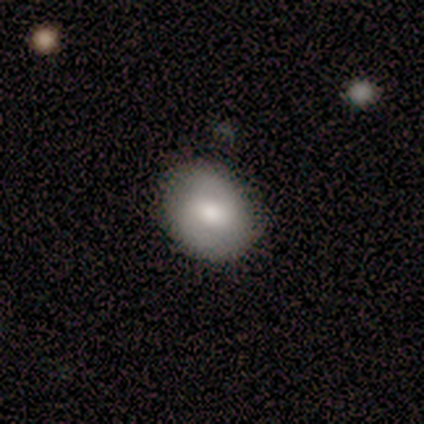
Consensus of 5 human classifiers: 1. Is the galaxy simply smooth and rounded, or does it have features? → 60% featured or disk, 40% smooth, 0% star or artifact.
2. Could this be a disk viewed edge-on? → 100% no, 0% yes.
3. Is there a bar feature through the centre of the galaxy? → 100% no, 0% strong, 0% weak.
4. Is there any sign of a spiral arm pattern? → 67% yes, 33% no.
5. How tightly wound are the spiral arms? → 50% tight (tied), 50% medium (tied), 0% loose.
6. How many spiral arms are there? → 100% 2, 0% 1, 0% 3, 0% 4, 0% more than 4, 0% can't tell.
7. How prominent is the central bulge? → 33% large (tied), 33% moderate (tied), 33% small (tied), 0% dominant, 0% none.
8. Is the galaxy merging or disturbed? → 80% none, 20% minor disturbance, 0% major disturbance, 0% merger.